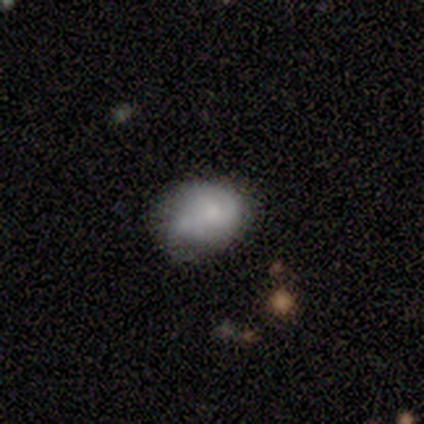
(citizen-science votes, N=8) Q: Smooth or featured?
A: smooth (75%); runner-up: featured or disk (25%)
Q: How rounded?
A: in between (67%); runner-up: round (33%)
Q: Merging?
A: minor disturbance (62%); runner-up: none (25%)